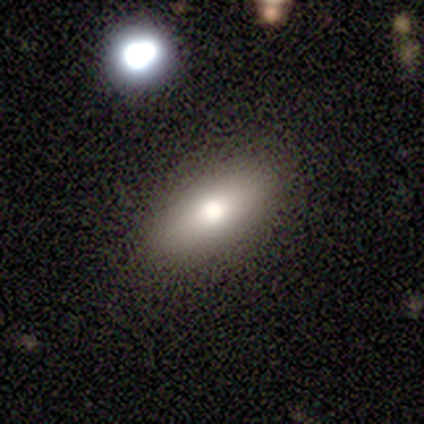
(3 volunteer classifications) smooth-or-featured: smooth: 100% | featured or disk: 0% | star or artifact: 0%
  how-rounded: in between: 100% | round: 0% | cigar-shaped: 0%
  merging: none: 67% | merger: 33% | minor disturbance: 0% | major disturbance: 0%